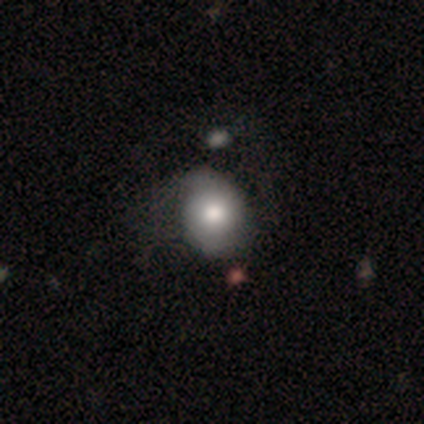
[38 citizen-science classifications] Smooth or featured? smooth (53%)
How rounded? in between (50%)
Merging? none (51%)